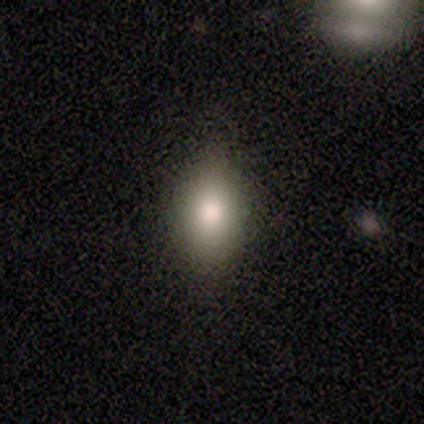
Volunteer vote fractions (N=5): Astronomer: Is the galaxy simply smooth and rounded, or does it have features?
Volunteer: smooth — 80%.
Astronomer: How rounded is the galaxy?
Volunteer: in between — 75%.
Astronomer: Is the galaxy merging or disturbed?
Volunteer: none — 100%.